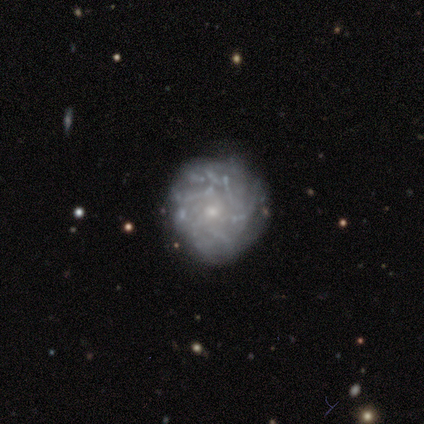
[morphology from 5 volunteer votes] This is likely a featured or disk galaxy (60%). It is clearly not viewed edge-on (100%). Bar: clearly no (100%). Spiral arm pattern: likely yes (67%). Spiral arm count: possibly 4 (50%, tied with more than 4). Spiral winding: possibly tight (50%, tied with loose). Central bulge: likely small (67%). Merging: possibly none (50%, tied with minor disturbance).